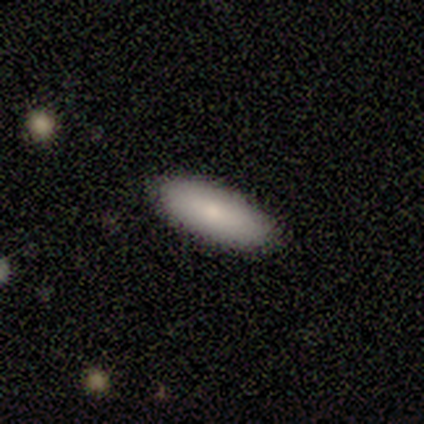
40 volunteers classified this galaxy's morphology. Smooth or featured? smooth (88%)
How rounded? in between (89%)
Merging? none (92%)